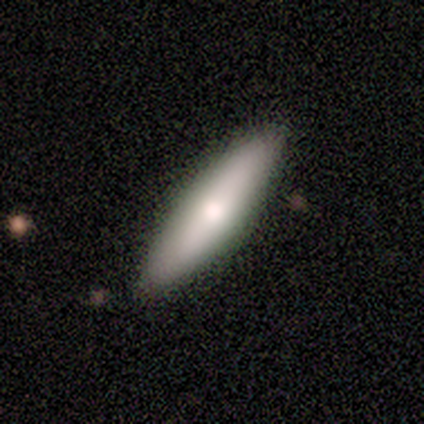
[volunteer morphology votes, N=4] smooth_or_featured: featured or disk (p=0.75) [alt: smooth p=0.25]
disk_edge_on: yes (p=1.00)
edge_on_bulge: rounded (p=1.00)
merging: none (p=1.00)